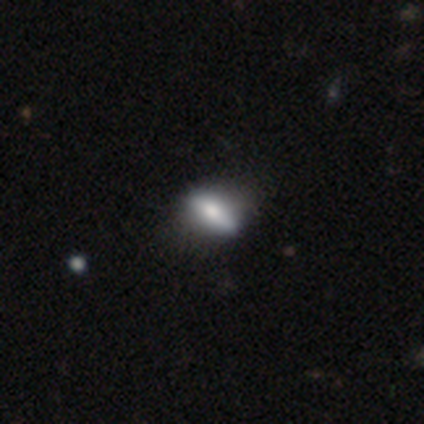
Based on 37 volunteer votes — Smooth or featured? smooth (49%)
How rounded? in between (67%)
Merging? none (70%)